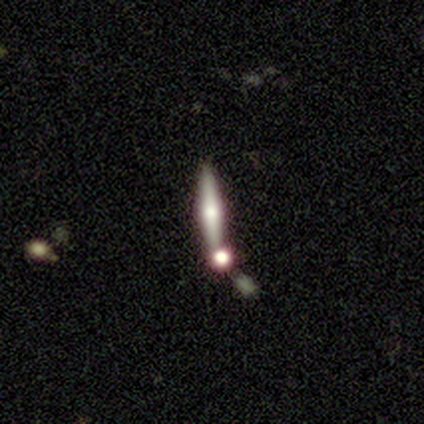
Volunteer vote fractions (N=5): Smooth or featured? 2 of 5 (40%, tied with featured or disk) said smooth. How rounded? 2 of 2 (100%) said cigar-shaped. Merging? 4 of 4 (100%) said none.